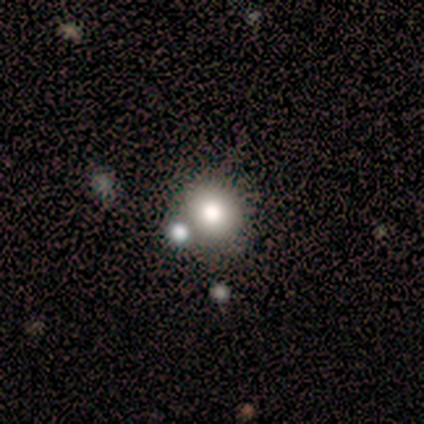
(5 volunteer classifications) This is clearly a smooth galaxy (80%). How rounded: likely round (75%). Merging: likely none (75%).